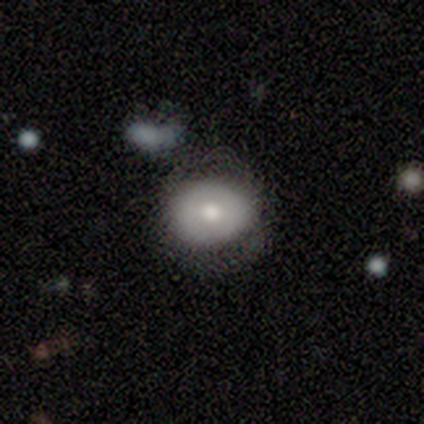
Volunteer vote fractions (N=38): smooth_or_featured: smooth (p=0.47) [alt: featured or disk p=0.45]
how_rounded: in between (p=0.56) [alt: round p=0.44]
merging: none (p=0.63) [alt: minor disturbance p=0.20]